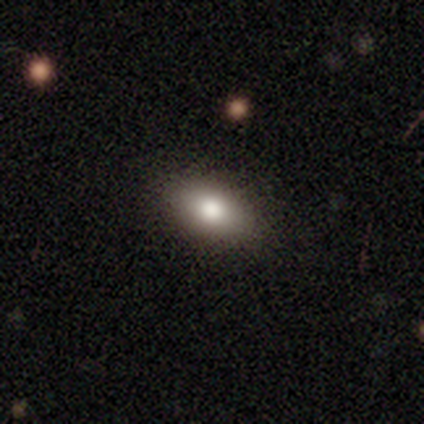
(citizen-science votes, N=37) Smooth or featured?
  - smooth: 76% *
  - featured or disk: 14%
  - star or artifact: 11%
How rounded?
  - in between: 96% *
  - round: 4%
  - cigar-shaped: 0%
Merging?
  - none: 91% *
  - minor disturbance: 9%
  - major disturbance: 0%
  - merger: 0%